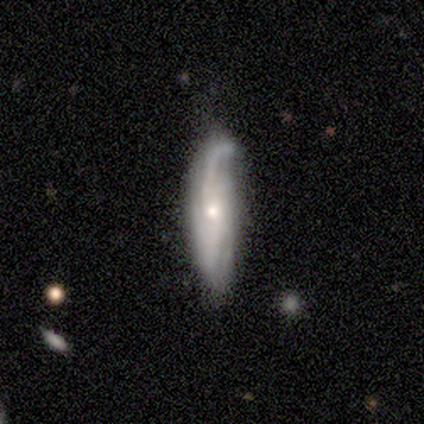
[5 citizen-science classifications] featured or disk 60%, smooth 40%, star or artifact 0%. Down the decision tree: edge-on disk — no (100%); bar — no (100%); spiral arms — no (67%); bulge size — small (67%); merging — none (60%).